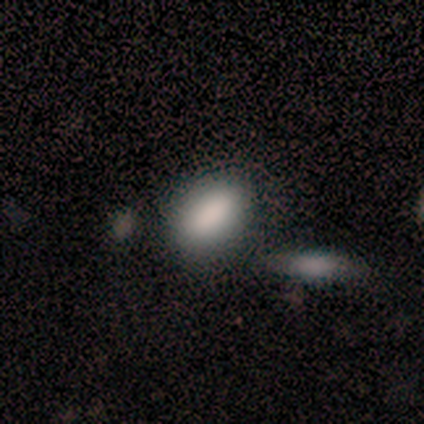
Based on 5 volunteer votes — This is clearly a smooth galaxy (100%). How rounded: clearly in between (100%). Merging: marginally none (40%, tied with minor disturbance).